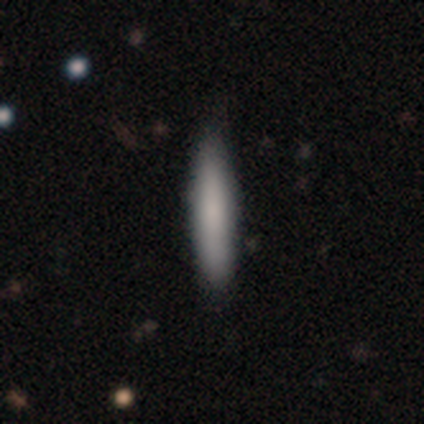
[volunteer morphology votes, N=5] Smooth or featured: smooth — 100%
How rounded: cigar-shaped — 60% (in between — 40%)
Merging: none — 80% (minor disturbance — 20%)